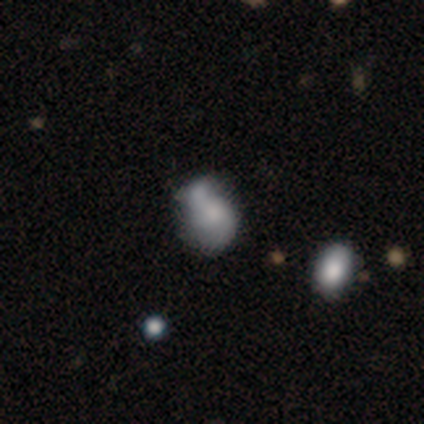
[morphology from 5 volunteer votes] A featured or disk galaxy (60%) with no bar (67%), 2 (100%) tight (50%, tied with loose) spiral arms (67%) and no central bulge (67%).

Vote fractions:
- Smooth or featured? featured or disk: 60% / smooth: 40% / star or artifact: 0%
- Edge-on disk? no: 100% / yes: 0%
- Bar? no: 67% / weak: 33% / strong: 0%
- Spiral arms? yes: 67% / no: 33%
- Spiral winding? tight: 50% (tied) / loose: 50% (tied) / medium: 0%
- Spiral arm count? 2: 100% / 1: 0% / 3: 0% / 4: 0% / more than 4: 0% / can't tell: 0%
- Bulge size? none: 67% / small: 33% / dominant: 0% / large: 0% / moderate: 0%
- Merging? none: 40% (tied) / merger: 40% (tied) / minor disturbance: 20% / major disturbance: 0%